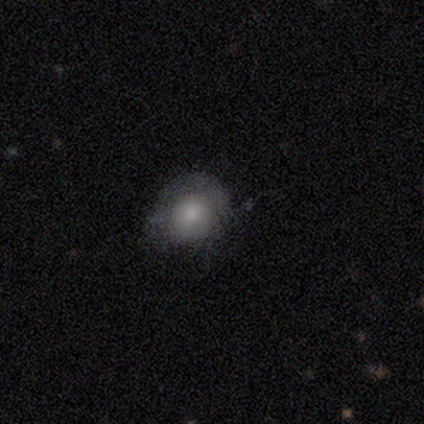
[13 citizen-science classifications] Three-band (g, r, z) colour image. It shows a smooth galaxy with no disk features (62%) that is round (62%). Merging: none (67%).